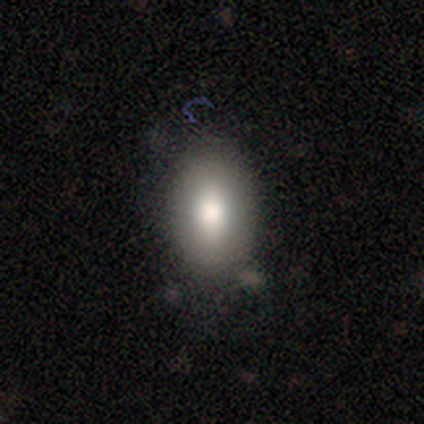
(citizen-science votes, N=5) Smooth or featured?
  - smooth: 80% *
  - featured or disk: 20%
  - star or artifact: 0%
How rounded?
  - in between: 100% *
  - round: 0%
  - cigar-shaped: 0%
Merging?
  - none: 80% *
  - minor disturbance: 20%
  - major disturbance: 0%
  - merger: 0%